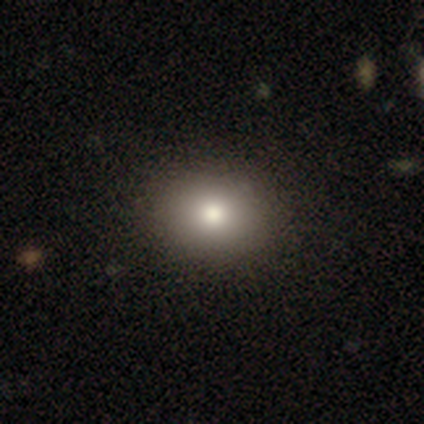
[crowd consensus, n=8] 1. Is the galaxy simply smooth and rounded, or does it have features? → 88% smooth, 12% star or artifact, 0% featured or disk.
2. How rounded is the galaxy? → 57% round, 43% in between, 0% cigar-shaped.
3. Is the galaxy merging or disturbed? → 100% none, 0% minor disturbance, 0% major disturbance, 0% merger.